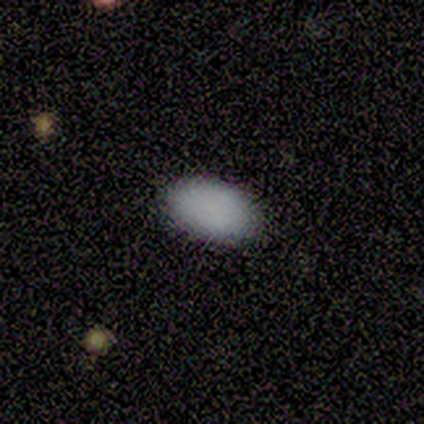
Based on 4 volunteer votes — smooth_or_featured: smooth (p=1.00)
how_rounded: in between (p=1.00)
merging: none (p=1.00)